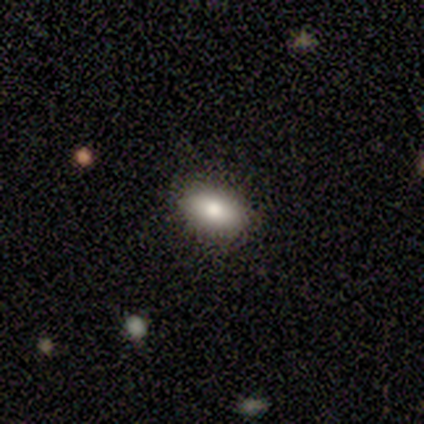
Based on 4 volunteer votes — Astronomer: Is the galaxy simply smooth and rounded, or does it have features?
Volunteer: smooth — 100%.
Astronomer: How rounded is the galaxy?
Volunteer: in between — 75%.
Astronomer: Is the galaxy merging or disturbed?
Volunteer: none — 100%.